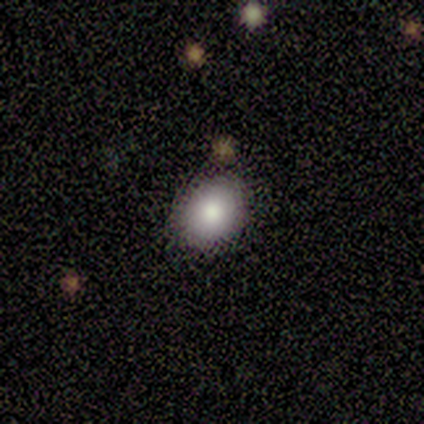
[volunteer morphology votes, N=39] Overall: smooth (82%). How rounded: in between (53%; round 47%). Merging: none (89%).